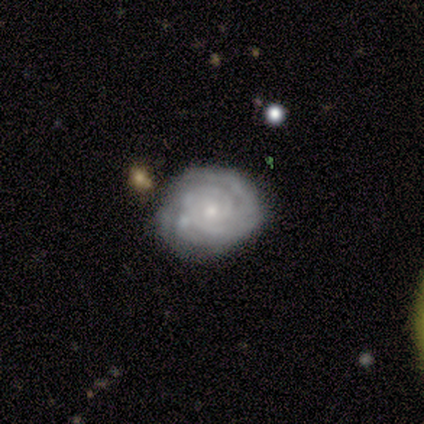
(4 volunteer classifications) A featured or disk galaxy (100%) with no bar (75%), 2 (50%, tied with can't tell) tight (100%) spiral arms (100%) and a moderate central bulge (75%). Merging: none (50%, tied with minor disturbance).